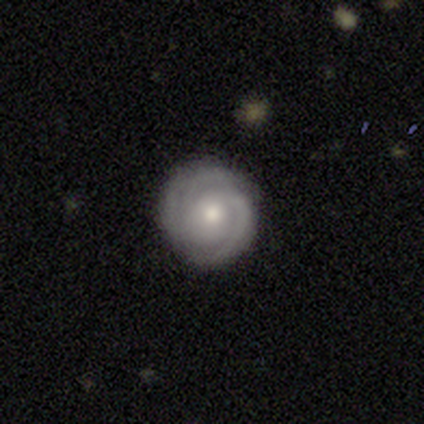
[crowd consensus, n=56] smooth-or-featured: featured or disk: 80% | smooth: 14% | star or artifact: 5%
  disk-edge-on: no: 96% | yes: 4%
    bar: no: 79% | weak: 16% | strong: 5%
    has-spiral-arms: yes: 98% | no: 2%
      spiral-winding: tight: 67% | medium: 19% | loose: 14%
      spiral-arm-count: 3: 48% | 2: 31% | can't tell: 17% | 1: 2% | 4: 2% | more than 4: 0%
    bulge-size: moderate: 44% | small: 42% | large: 12% | none: 2% | dominant: 0%
  merging: none: 89% | minor disturbance: 8% | major disturbance: 2% | merger: 2%